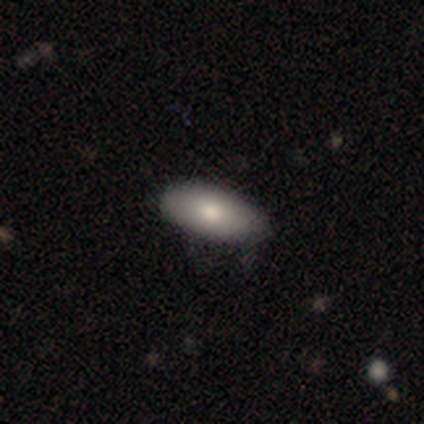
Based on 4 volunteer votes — A smooth galaxy with no disk features (50%, tied with featured or disk) that is in between round and cigar-shaped (100%). Merging: none (100%).